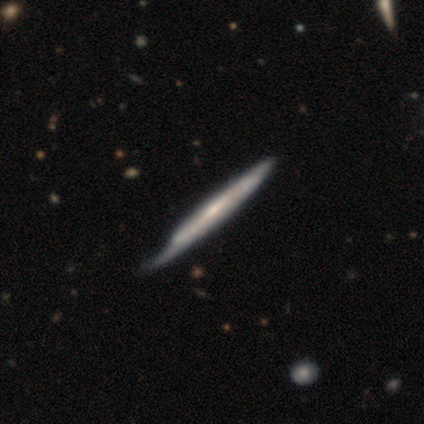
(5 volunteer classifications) smooth-or-featured: featured or disk: 60% | smooth: 40% | star or artifact: 0%
  disk-edge-on: yes: 67% | no: 33%
    edge-on-bulge: rounded: 100% | boxy: 0% | none: 0%
  merging: minor disturbance: 40% | none: 20% | major disturbance: 20% | merger: 20%